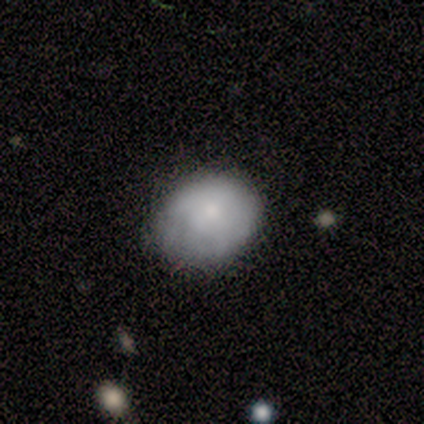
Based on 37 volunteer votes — Q: Smooth or featured?
A: smooth (76%); runner-up: featured or disk (22%)
Q: How rounded?
A: in between (57%); runner-up: round (43%)
Q: Merging?
A: none (64%); runner-up: minor disturbance (25%)